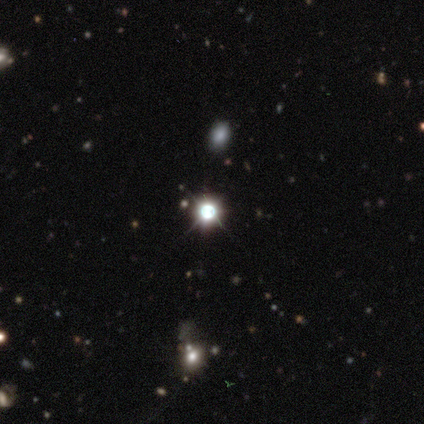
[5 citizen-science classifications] A star or artifact, not a galaxy (80%).